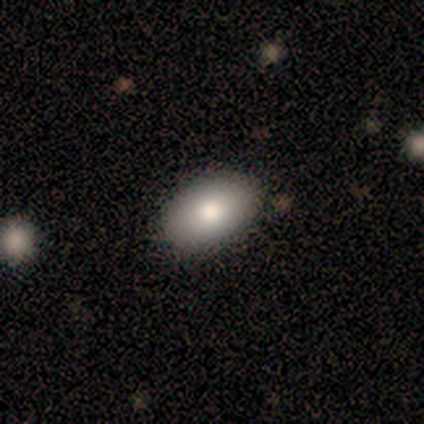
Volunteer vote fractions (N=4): Smooth or featured? 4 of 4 (100%) said smooth. How rounded? 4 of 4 (100%) said in between. Merging? 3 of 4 (75%) said none.